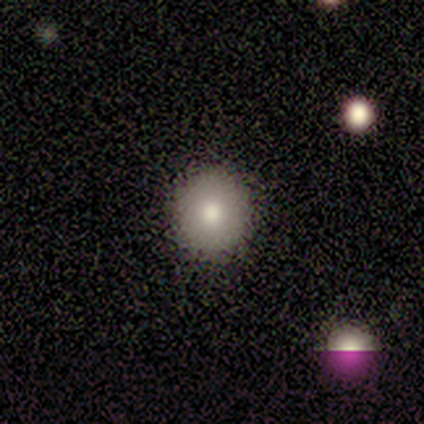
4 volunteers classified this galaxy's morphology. This is likely a smooth galaxy (75%). How rounded: clearly round (100%). Merging: clearly none (100%).